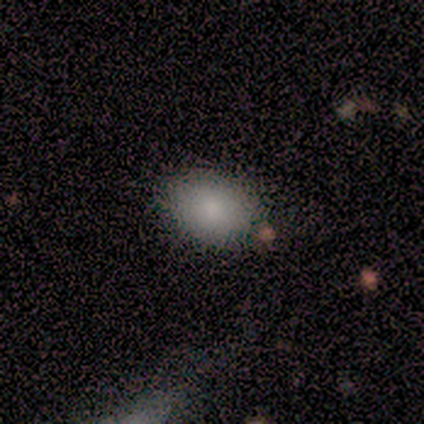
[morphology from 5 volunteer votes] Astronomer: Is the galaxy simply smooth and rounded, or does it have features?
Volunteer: smooth — 100%.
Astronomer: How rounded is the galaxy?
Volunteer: round — 60% (runner-up: in between, 40%).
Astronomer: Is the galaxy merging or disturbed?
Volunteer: none — 100%.